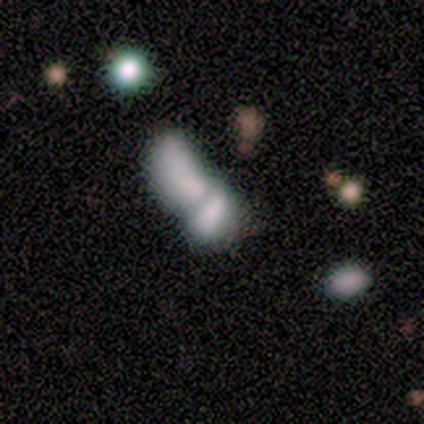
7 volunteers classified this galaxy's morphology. Smooth or featured? 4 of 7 (57%) said featured or disk. Edge-on disk? 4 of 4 (100%) said no. Bar? 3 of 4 (75%) said no. Spiral arms? 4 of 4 (100%) said no. Bulge size? 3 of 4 (75%) said none. Merging? 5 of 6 (83%) said merger.